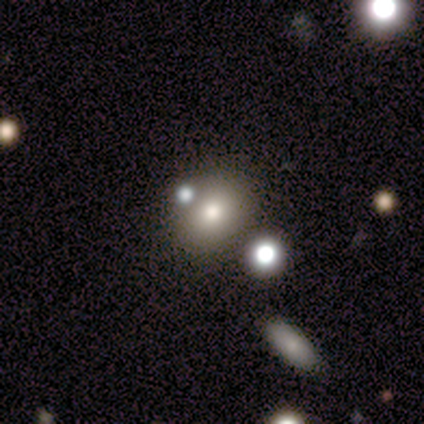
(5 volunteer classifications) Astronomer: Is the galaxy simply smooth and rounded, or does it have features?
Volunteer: smooth — 60%.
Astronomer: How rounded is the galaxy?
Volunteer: round — 100%.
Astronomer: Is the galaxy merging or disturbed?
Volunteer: none — 75%.